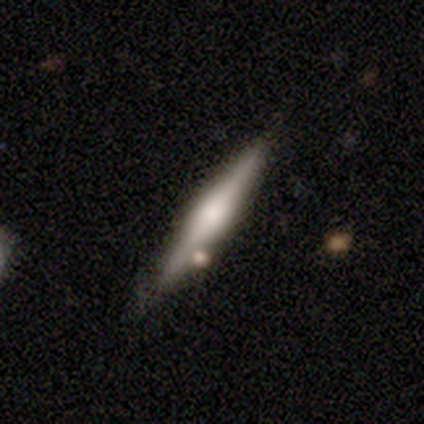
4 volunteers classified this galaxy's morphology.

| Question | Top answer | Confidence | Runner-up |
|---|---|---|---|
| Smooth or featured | smooth | 50% | tied: featured or disk (50%) |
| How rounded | cigar-shaped | 100% | — |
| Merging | none | 50% | minor disturbance (25%) |